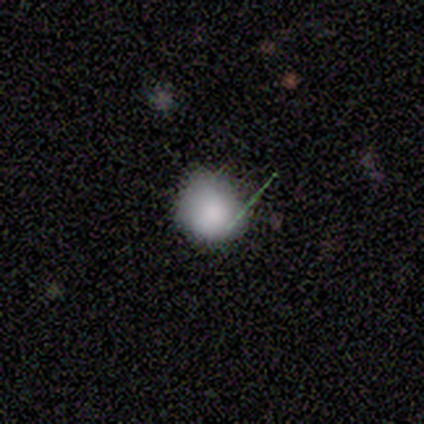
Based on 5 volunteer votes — Overall: smooth (80%). How rounded: round (100%). Merging: none (60%; minor disturbance 40%).